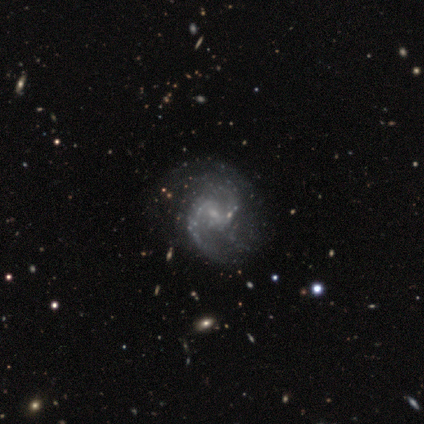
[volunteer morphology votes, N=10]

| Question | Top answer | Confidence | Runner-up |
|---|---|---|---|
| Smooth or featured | featured or disk | 100% | — |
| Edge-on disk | no | 100% | — |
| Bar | weak | 60% | no (40%) |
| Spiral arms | yes | 100% | — |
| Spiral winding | medium | 50% | tight (30%) |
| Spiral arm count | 2 | 70% | can't tell (20%) |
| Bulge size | small | 70% | moderate (20%) |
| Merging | none | 50% | minor disturbance (40%) |